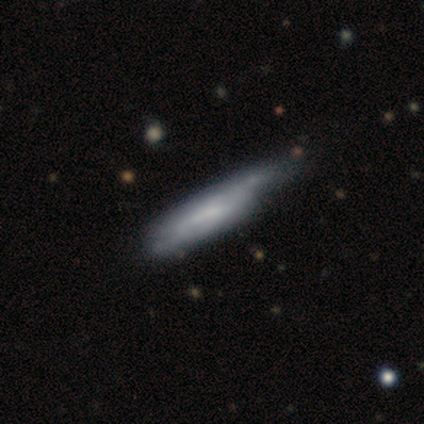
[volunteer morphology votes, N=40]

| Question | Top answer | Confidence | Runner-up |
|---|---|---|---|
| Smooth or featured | smooth | 62% | featured or disk (38%) |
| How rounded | cigar-shaped | 68% | in between (28%) |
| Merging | none | 32% | tied: minor disturbance (32%) |